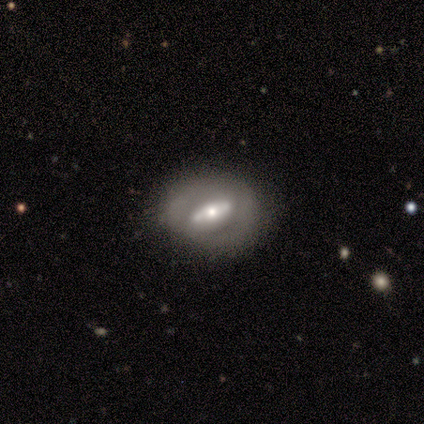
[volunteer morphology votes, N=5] This is clearly a featured or disk galaxy (80%). It is likely not viewed edge-on (75%). Bar: likely no (67%). Spiral arm pattern: clearly no (100%). Central bulge: likely moderate (67%). Merging: clearly none (80%).